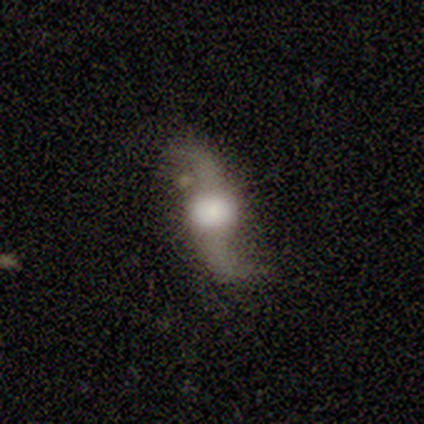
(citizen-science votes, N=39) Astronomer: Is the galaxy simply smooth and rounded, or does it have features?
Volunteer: featured or disk — 90%.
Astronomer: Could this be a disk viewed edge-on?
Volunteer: no — 74%.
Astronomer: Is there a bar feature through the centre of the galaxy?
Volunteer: no — 65%.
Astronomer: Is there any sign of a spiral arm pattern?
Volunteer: yes — 96%.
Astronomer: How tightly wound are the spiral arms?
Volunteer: loose — 84%.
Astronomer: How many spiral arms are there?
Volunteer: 2 — 100%.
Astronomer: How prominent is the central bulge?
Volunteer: large — 50%.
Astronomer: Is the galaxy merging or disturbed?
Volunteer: none — 82%.